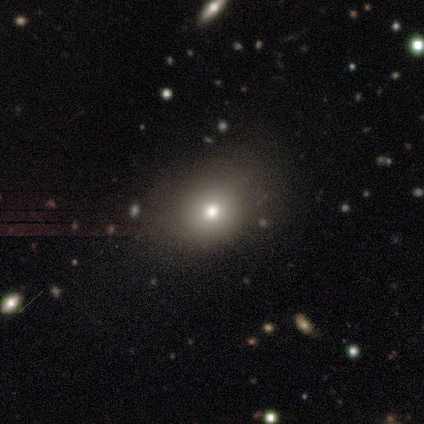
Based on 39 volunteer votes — Q: Smooth or featured?
A: smooth (59%); runner-up: star or artifact (23%)
Q: How rounded?
A: round (78%); runner-up: in between (22%)
Q: Merging?
A: none (87%); runner-up: minor disturbance (7%)